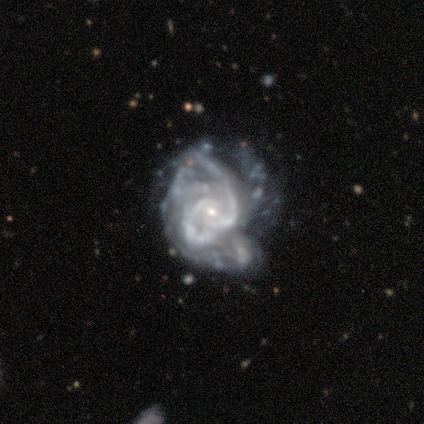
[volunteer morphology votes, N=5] Q: Smooth or featured?
A: featured or disk (100%)
Q: Edge-on disk?
A: no (100%)
Q: Bar?
A: no (100%)
Q: Spiral arms?
A: yes (100%)
Q: Spiral winding?
A: medium (60%); runner-up: tight (20%)
Q: Spiral arm count?
A: can't tell (100%)
Q: Bulge size?
A: small (80%); runner-up: moderate (20%)
Q: Merging?
A: minor disturbance (40%); tied with: merger (40%)